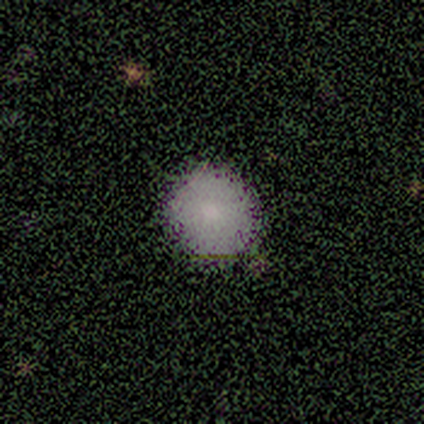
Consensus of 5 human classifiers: Smooth or featured? smooth (40%, tied with featured or disk)
How rounded? round (100%)
Merging? none (50%)